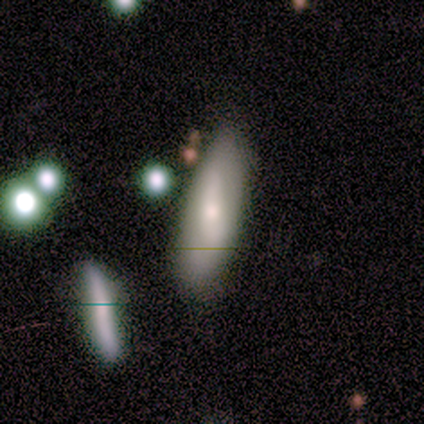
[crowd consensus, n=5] Morphology: type=smooth (80%); roundness=in between (75%); merging=minor disturbance (60%).